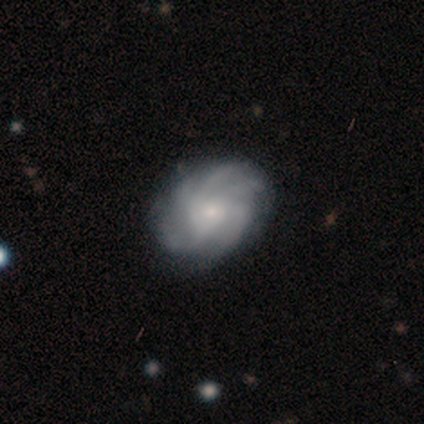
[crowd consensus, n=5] Overall: featured or disk (60%; smooth 40%). Edge-on disk: no (100%). Bar: no (67%; weak 33%). Spiral arms: yes (100%). Spiral arm count: more than 4 (67%; can't tell 33%). Spiral winding: medium (100%). Bulge size: moderate (67%; small 33%). Merging: none (100%).